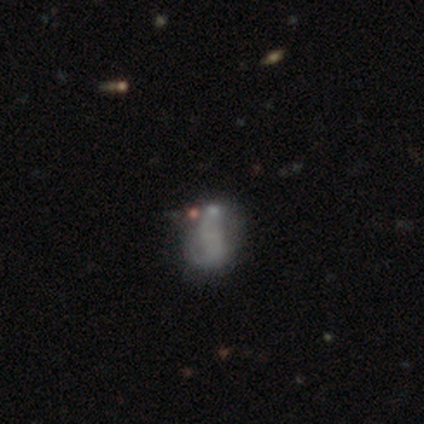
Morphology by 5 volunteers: type=smooth (60%); roundness=in between (100%); merging=none (40%).